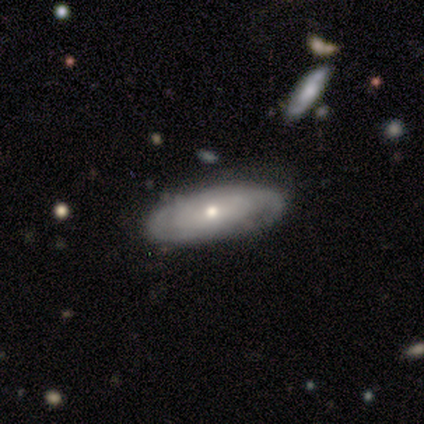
A smooth galaxy with no disk features (50%, tied with featured or disk) that is cigar-shaped (67%). Merging: none (83%).